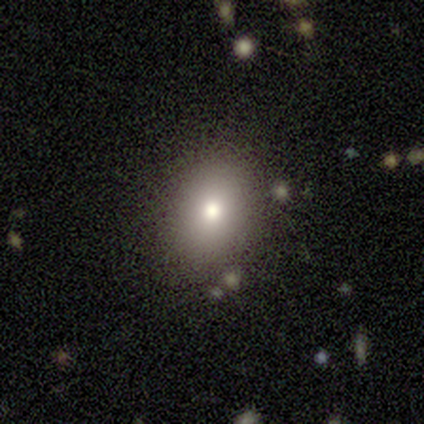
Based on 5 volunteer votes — This is clearly a smooth galaxy (100%). How rounded: likely in between (60%). Merging: clearly none (100%).